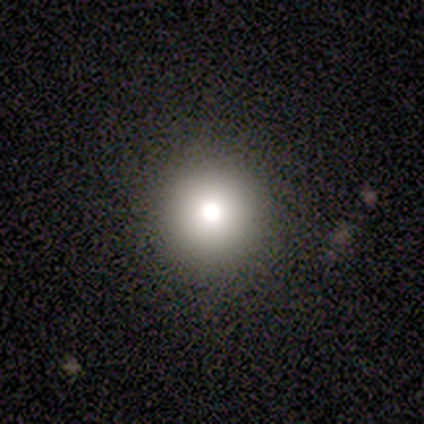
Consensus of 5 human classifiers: Smooth or featured? smooth (80%)
How rounded? round (100%)
Merging? none (100%)